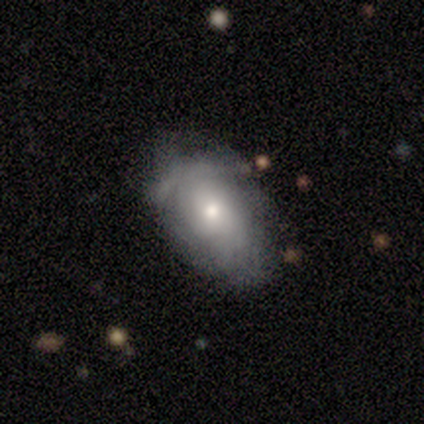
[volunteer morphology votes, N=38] Smooth or featured: smooth — 53% (featured or disk — 32%)
How rounded: in between — 90% (round — 10%)
Merging: minor disturbance — 50% (none — 47%)